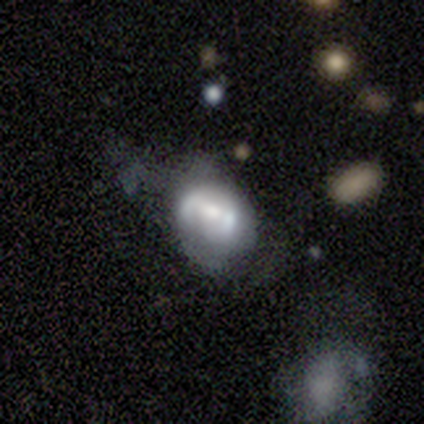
smooth 60%, featured or disk 40%, star or artifact 0%. Down the decision tree: how rounded — in between (100%); merging — none (60%).